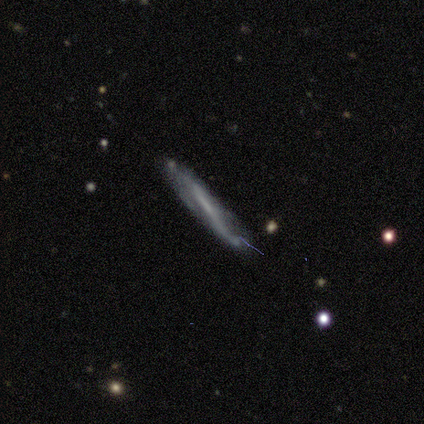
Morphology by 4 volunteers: smooth-or-featured: smooth: 50% (tied) | featured or disk: 50% (tied) | star or artifact: 0%
  how-rounded: cigar-shaped: 100% | round: 0% | in between: 0%
  merging: none: 75% | minor disturbance: 25% | major disturbance: 0% | merger: 0%